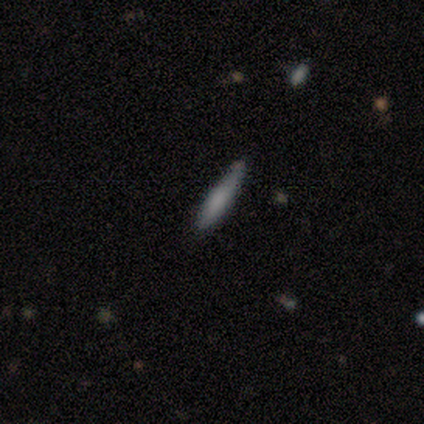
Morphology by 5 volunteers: smooth-or-featured: featured or disk: 60% | smooth: 40% | star or artifact: 0%
  disk-edge-on: yes: 100% | no: 0%
    edge-on-bulge: rounded: 67% | boxy: 33% | none: 0%
  merging: none: 80% | minor disturbance: 20% | major disturbance: 0% | merger: 0%